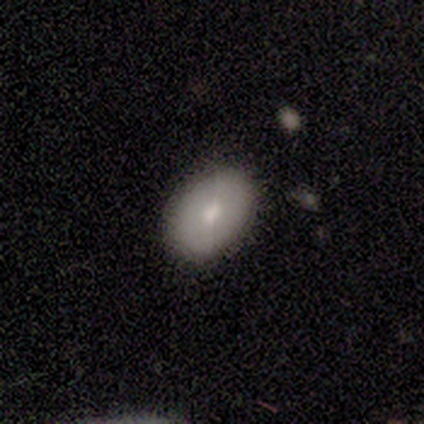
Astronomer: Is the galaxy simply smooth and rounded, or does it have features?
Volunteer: smooth — 100%.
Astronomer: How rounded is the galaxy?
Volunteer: in between — 100%.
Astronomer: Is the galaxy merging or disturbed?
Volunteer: none — 75%.